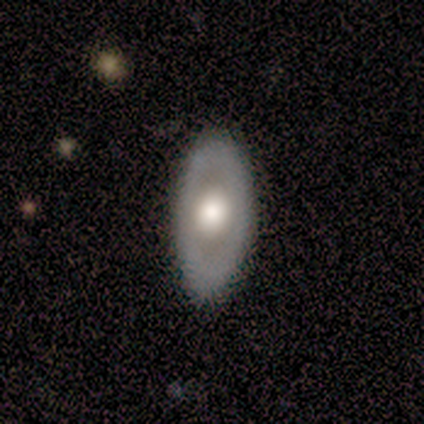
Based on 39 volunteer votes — Morphology: type=featured or disk (67%); edge-on=no (81%); bar=no (90%); spiral arms=no (90%); bulge=large (57%); merging=none (64%).